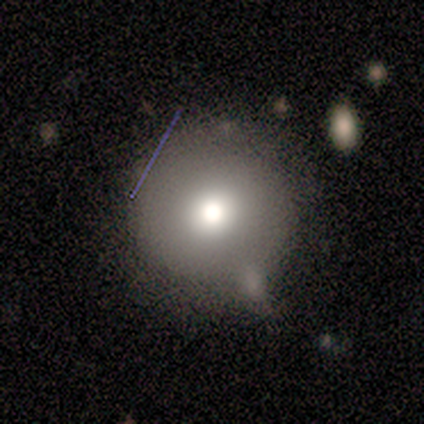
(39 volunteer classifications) This appears to be a smooth galaxy with no disk features (85%) that is round (91%). Merging: none (50%).